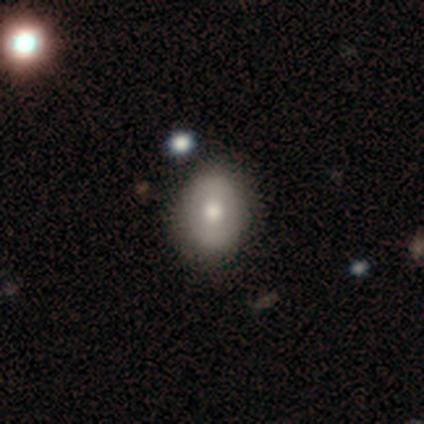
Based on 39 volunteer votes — Volunteers were most divided on "how rounded": in between: 60%, round: 40%, cigar-shaped: 0%. More confident: merging — none (69%); smooth or featured — smooth (64%).